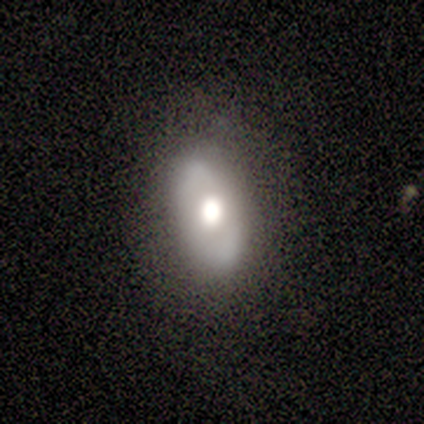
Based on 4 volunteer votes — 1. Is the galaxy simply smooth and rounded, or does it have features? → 100% featured or disk, 0% smooth, 0% star or artifact.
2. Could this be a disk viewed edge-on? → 100% no, 0% yes.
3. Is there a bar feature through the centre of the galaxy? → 100% no, 0% strong, 0% weak.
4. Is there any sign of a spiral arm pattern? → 75% no, 25% yes.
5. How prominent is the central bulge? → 75% large, 25% moderate, 0% dominant, 0% small, 0% none.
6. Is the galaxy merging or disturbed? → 75% none, 25% major disturbance, 0% minor disturbance, 0% merger.